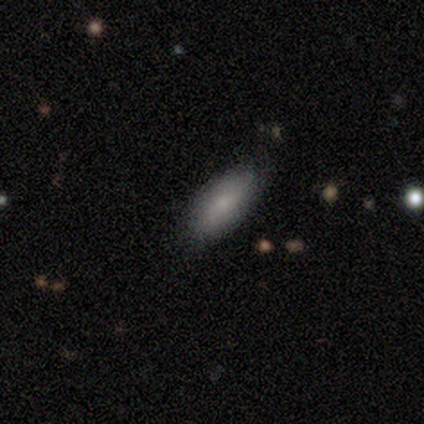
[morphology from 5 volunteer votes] Smooth or featured? smooth (60%)
How rounded? in between (100%)
Merging? none (100%)